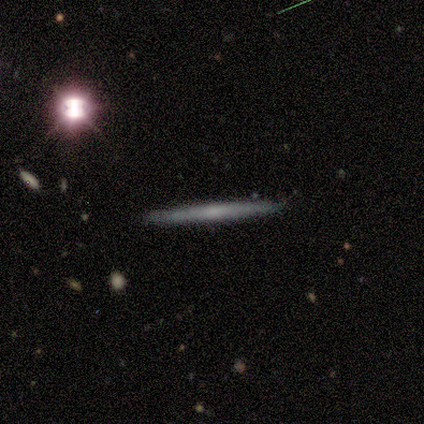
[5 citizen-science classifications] Volunteers were most divided on "smooth or featured" (2-way tie): smooth: 40%, featured or disk: 40%, star or artifact: 20%. More confident: how rounded — cigar-shaped (100%); merging — none (100%).